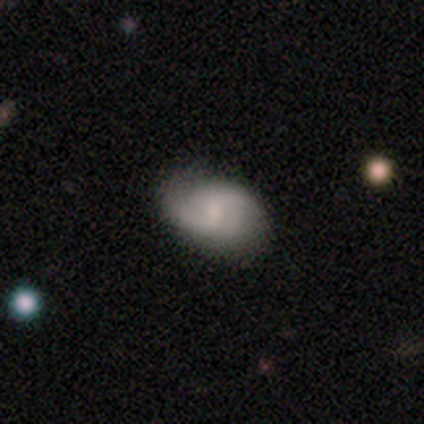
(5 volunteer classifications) This appears to be a featured or disk galaxy (80%) with a weak bar (50%, tied with no), 2 (75%) medium (50%, tied with loose) spiral arms (100%) and a moderate central bulge (75%). Merging: none (80%).